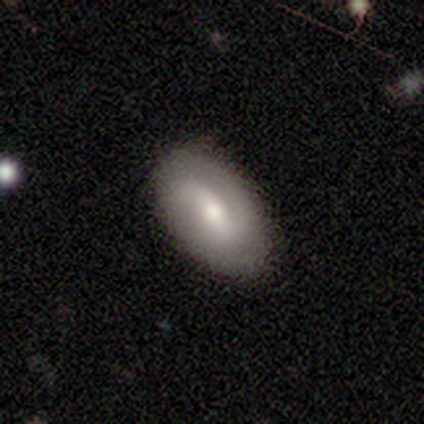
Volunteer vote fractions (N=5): This is marginally a smooth galaxy (40%, tied with featured or disk). How rounded: clearly in between (100%). Merging: clearly none (100%).